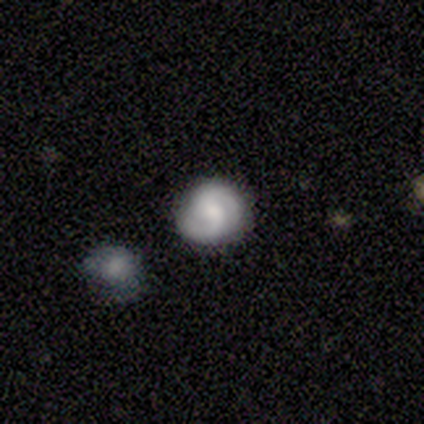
A featured or disk galaxy (77%) with a weak bar (55%), 2 (93%) tight (39%, tied with medium) spiral arms (97%) and a moderate central bulge (41%).

Vote fractions:
- Smooth or featured? featured or disk: 77% / smooth: 18% / star or artifact: 5%
- Edge-on disk? no: 97% / yes: 3%
- Bar? weak: 55% / no: 31% / strong: 14%
- Spiral arms? yes: 97% / no: 3%
- Spiral winding? tight: 39% (tied) / medium: 39% (tied) / loose: 21%
- Spiral arm count? 2: 93% / 1: 4% / can't tell: 4% / 3: 0% / 4: 0% / more than 4: 0%
- Bulge size? moderate: 41% / small: 28% / large: 21% / none: 10% / dominant: 0%
- Merging? none: 84% / minor disturbance: 8% / merger: 5% / major disturbance: 3%